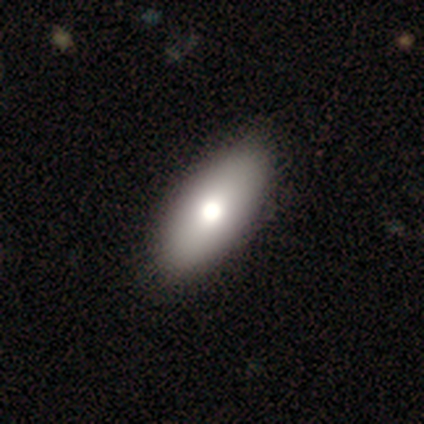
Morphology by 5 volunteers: Smooth or featured? smooth (80%)
How rounded? in between (100%)
Merging? none (100%)